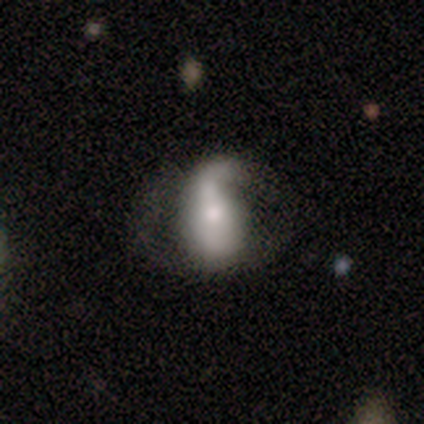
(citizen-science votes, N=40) Volunteers were most divided on "bar": no: 46%, strong: 35%, weak: 19%. Remaining: edge-on disk — no (96%); spiral arms — yes (85%); smooth or featured — featured or disk (68%); spiral winding — loose (64%); spiral arm count — 1 (55%); merging — major disturbance (49%); bulge size — moderate (46%).